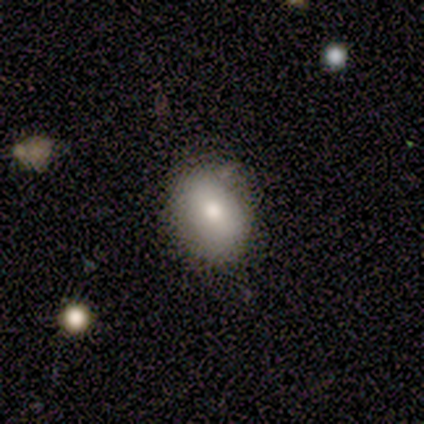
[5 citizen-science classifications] Overall: smooth (80%). How rounded: in between (75%). Merging: none (60%; minor disturbance 40%).